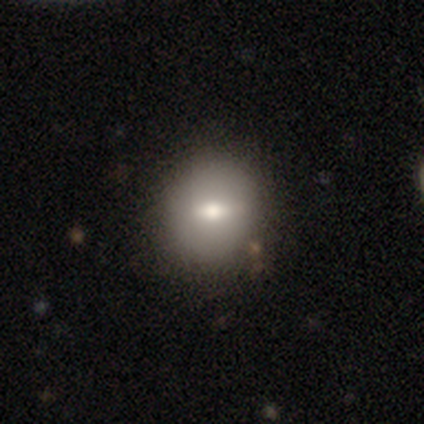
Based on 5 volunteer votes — Morphology: type=smooth (60%); roundness=round (67%); merging=none (80%).